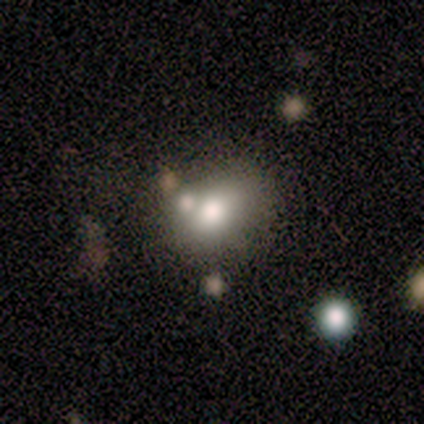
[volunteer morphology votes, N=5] Smooth or featured: featured or disk — 60% (smooth — 40%)
Edge-on disk: no — 100%
Bar: strong — 33% (tied with weak — 33%; no — 33%)
Spiral arms: no — 100%
Bulge size: large — 33% (tied with moderate — 33%; none — 33%)
Merging: merger — 60% (none — 20%)